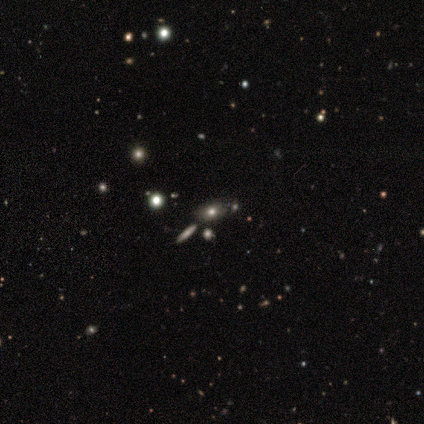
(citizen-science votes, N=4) Morphology: type=smooth (75%); roundness=in between (100%); merging=none (50%, tied with minor disturbance).